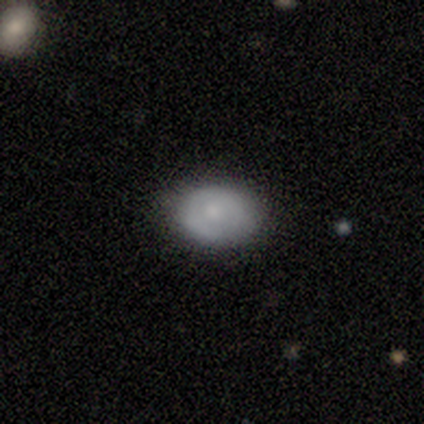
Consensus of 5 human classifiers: smooth_or_featured: smooth (p=0.60) [alt: featured or disk p=0.20]
how_rounded: in between (p=0.67) [alt: round p=0.33]
merging: none (p=1.00)